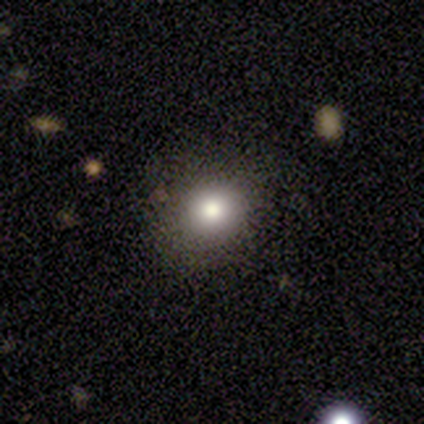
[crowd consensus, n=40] smooth 78%, featured or disk 12%, star or artifact 10%. Down the decision tree: how rounded — round (81%); merging — none (67%).